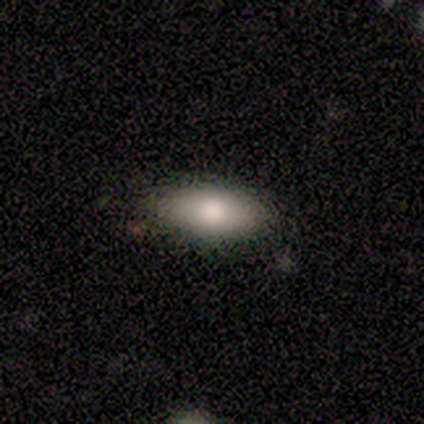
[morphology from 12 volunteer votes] Smooth or featured: smooth — 83% (featured or disk — 17%)
How rounded: in between — 80% (round — 10%)
Merging: none — 100%